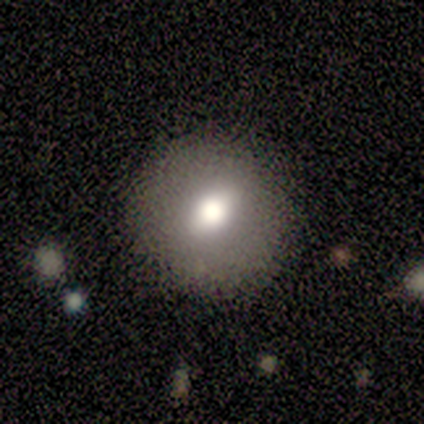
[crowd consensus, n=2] smooth-or-featured: smooth: 50% (tied) | featured or disk: 50% (tied) | star or artifact: 0%
  how-rounded: round: 100% | in between: 0% | cigar-shaped: 0%
  merging: none: 50% (tied) | major disturbance: 50% (tied) | minor disturbance: 0% | merger: 0%